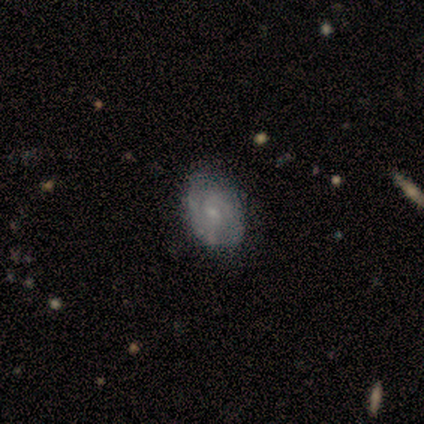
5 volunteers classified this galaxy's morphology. Volunteers were most divided on "bar": weak: 67%, no: 33%, strong: 0%. More confident: edge-on disk — no (100%); spiral arms — yes (100%); spiral winding — medium (100%); bulge size — small (100%); merging — none (100%); spiral arm count — 2 (67%); smooth or featured — featured or disk (60%).